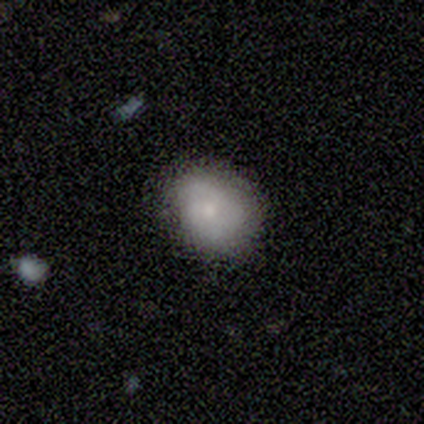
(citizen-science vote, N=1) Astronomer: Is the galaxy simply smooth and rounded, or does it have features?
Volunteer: smooth — 100%.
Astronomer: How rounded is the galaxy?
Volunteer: in between — 100%.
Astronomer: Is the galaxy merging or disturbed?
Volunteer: minor disturbance — 100%.